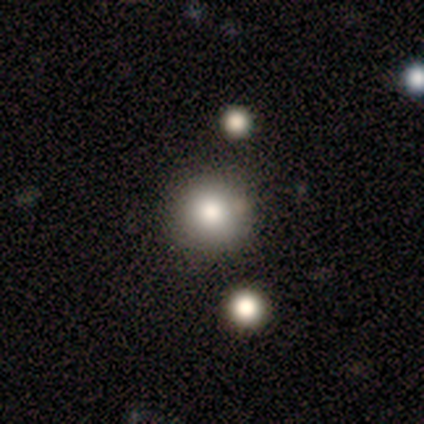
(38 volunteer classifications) Smooth or featured? smooth (66%)
How rounded? round (96%)
Merging? none (90%)